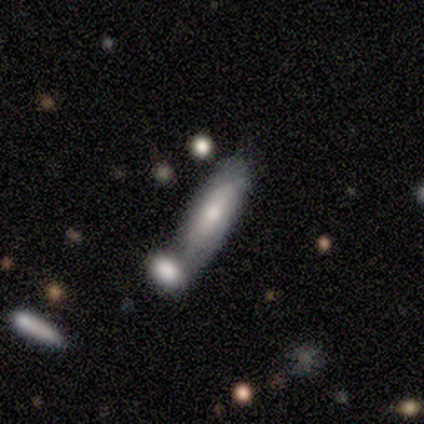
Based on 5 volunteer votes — Smooth or featured? featured or disk (100%)
Edge-on disk? no (80%)
Bar? no (75%)
Spiral arms? yes (50%, tied with no)
Spiral winding? tight (50%, tied with medium)
Spiral arm count? 2 (50%, tied with can't tell)
Bulge size? small (50%)
Merging? none (60%)